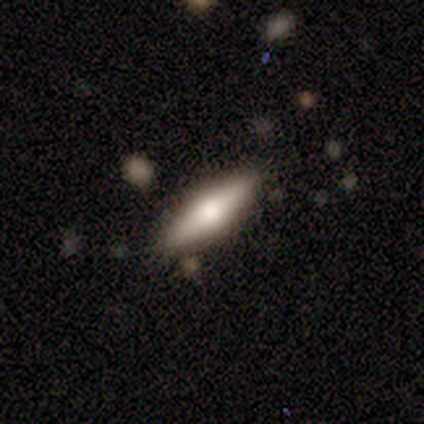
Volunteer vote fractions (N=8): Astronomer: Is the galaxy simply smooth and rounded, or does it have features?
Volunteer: smooth — 62%.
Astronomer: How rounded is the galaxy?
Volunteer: cigar-shaped — 100%.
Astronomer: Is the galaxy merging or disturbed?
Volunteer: none — 62%.